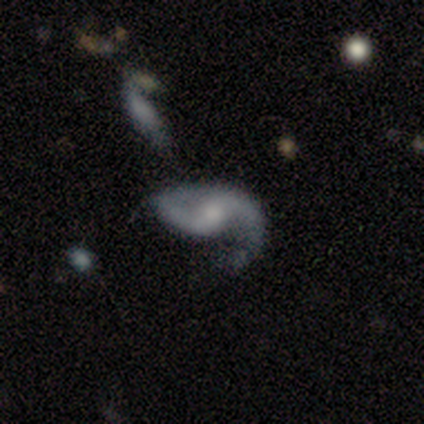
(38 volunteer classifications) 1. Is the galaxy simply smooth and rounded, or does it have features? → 84% featured or disk, 13% smooth, 3% star or artifact.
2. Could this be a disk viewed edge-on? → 97% no, 3% yes.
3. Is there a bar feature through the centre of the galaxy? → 48% weak, 45% no, 6% strong.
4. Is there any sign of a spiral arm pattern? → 90% yes, 10% no.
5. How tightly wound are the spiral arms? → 64% loose, 25% medium, 11% tight.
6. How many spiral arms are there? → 86% 2, 14% 1, 0% 3, 0% 4, 0% more than 4, 0% can't tell.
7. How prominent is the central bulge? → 35% small, 32% moderate, 23% none, 6% large, 3% dominant.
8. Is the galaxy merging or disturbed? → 49% none, 24% major disturbance, 22% minor disturbance, 5% merger.